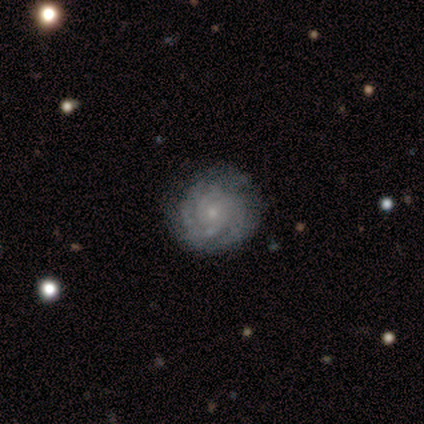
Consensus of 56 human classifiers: This appears to be a featured or disk galaxy (80%) with no bar (82%), tight (81%) spiral arms (96%) and a small central bulge (80%). Merging: none (85%).